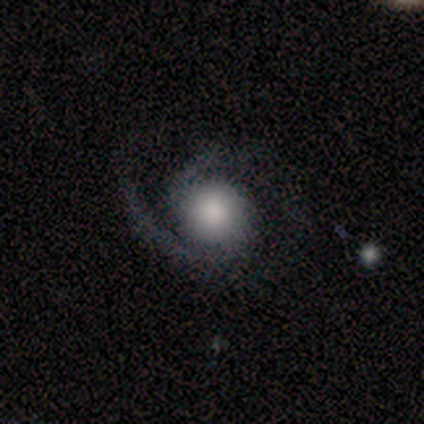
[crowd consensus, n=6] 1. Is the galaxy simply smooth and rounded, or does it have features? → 50% featured or disk, 33% star or artifact, 17% smooth.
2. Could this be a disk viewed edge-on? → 100% no, 0% yes.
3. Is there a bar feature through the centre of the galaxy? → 100% no, 0% strong, 0% weak.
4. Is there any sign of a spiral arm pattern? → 100% yes, 0% no.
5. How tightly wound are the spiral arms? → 67% medium, 33% tight, 0% loose.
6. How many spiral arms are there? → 100% 2, 0% 1, 0% 3, 0% 4, 0% more than 4, 0% can't tell.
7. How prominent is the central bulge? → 33% large (tied), 33% moderate (tied), 33% small (tied), 0% dominant, 0% none.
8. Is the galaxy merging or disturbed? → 100% none, 0% minor disturbance, 0% major disturbance, 0% merger.